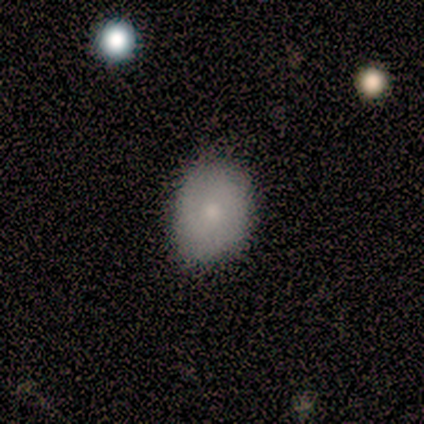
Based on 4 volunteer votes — Q: Smooth or featured?
A: smooth (75%); runner-up: featured or disk (25%)
Q: How rounded?
A: in between (67%); runner-up: round (33%)
Q: Merging?
A: none (100%)